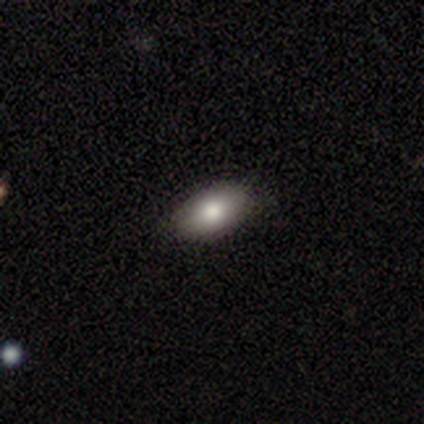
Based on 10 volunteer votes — Smooth or featured? smooth (70%)
How rounded? in between (100%)
Merging? none (100%)